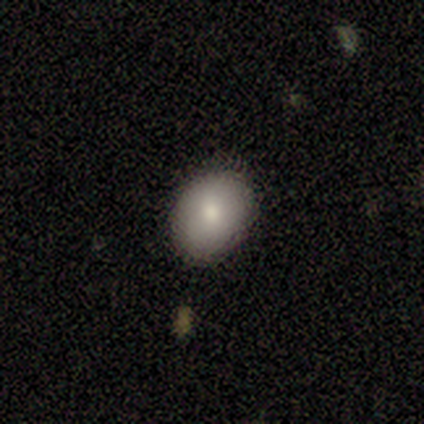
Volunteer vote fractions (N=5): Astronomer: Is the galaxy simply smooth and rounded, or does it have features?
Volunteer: smooth — 100%.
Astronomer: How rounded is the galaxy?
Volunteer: in between — 80%.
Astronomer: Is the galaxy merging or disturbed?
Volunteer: none — 80%.